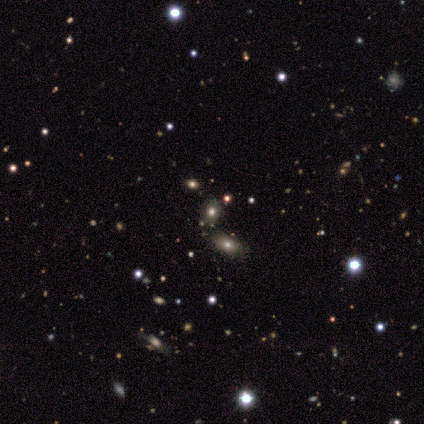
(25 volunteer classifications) Smooth or featured: smooth — 64% (star or artifact — 28%)
How rounded: in between — 75% (round — 25%)
Merging: none — 83% (merger — 11%)